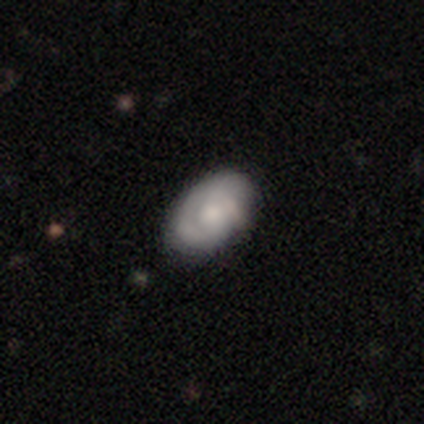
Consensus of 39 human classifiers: smooth-or-featured: featured or disk: 64% | smooth: 33% | star or artifact: 3%
  disk-edge-on: no: 96% | yes: 4%
    bar: no: 79% | weak: 21% | strong: 0%
    has-spiral-arms: yes: 75% | no: 25%
      spiral-winding: tight: 61% | loose: 22% | medium: 17%
      spiral-arm-count: 1: 50% | 2: 28% | can't tell: 22% | 3: 0% | 4: 0% | more than 4: 0%
    bulge-size: moderate: 33% | small: 29% | none: 25% | large: 12% | dominant: 0%
  merging: none: 82% | minor disturbance: 11% | merger: 5% | major disturbance: 3%